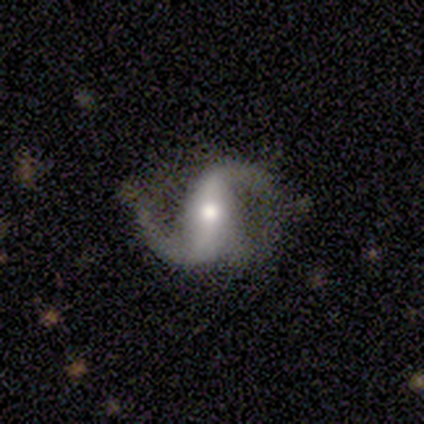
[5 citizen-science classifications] Morphology: type=featured or disk (100%); edge-on=no (80%); bar=strong (50%); spiral arms=yes (100%); winding=loose (100%); arm count=2 (100%); bulge=moderate (50%, tied with small); merging=none (60%).